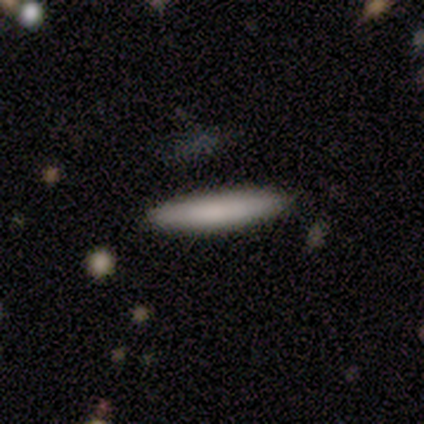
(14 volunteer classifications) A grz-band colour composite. It shows a smooth galaxy with no disk features (79%) that is cigar-shaped (91%). Merging: none (92%).